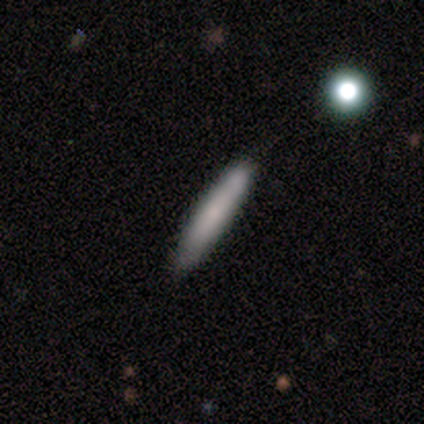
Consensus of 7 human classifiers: Smooth or featured? 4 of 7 (57%) said smooth. How rounded? 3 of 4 (75%) said cigar-shaped. Merging? 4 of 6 (67%) said none.